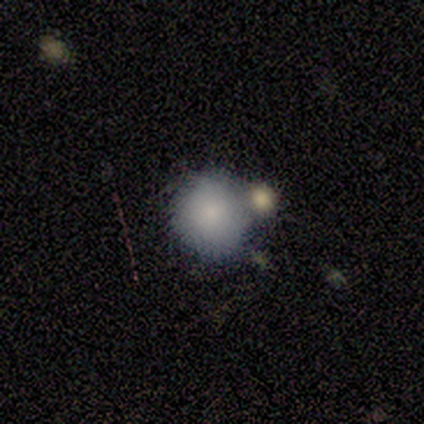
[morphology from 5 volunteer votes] smooth-or-featured: smooth: 80% | featured or disk: 20% | star or artifact: 0%
  how-rounded: round: 75% | in between: 25% | cigar-shaped: 0%
  merging: none: 40% (tied) | major disturbance: 40% (tied) | merger: 20% | minor disturbance: 0%